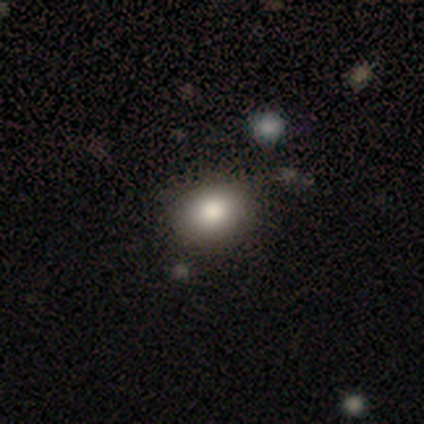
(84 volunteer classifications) This appears to be a smooth galaxy with no disk features (76%) that is in between round and cigar-shaped (53%). Merging: none (78%).